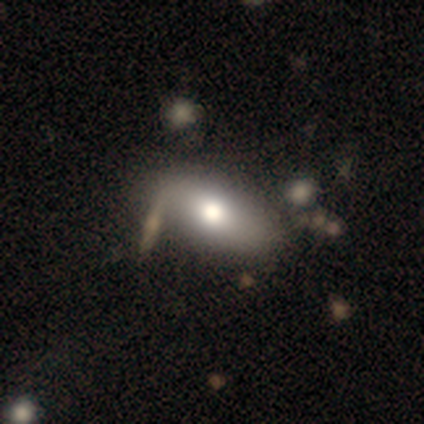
This is likely a smooth galaxy (60%). How rounded: clearly in between (100%). Merging: clearly none (100%).